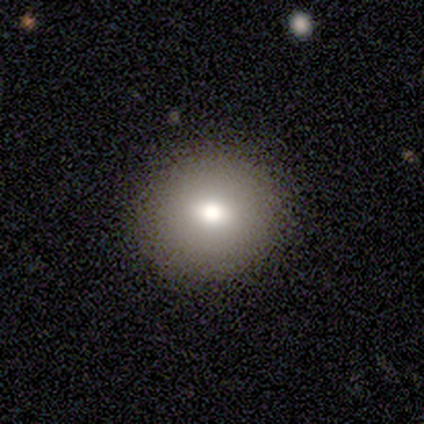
Overall: smooth (40%, tied with featured or disk). How rounded: round (100%). Merging: none (100%).